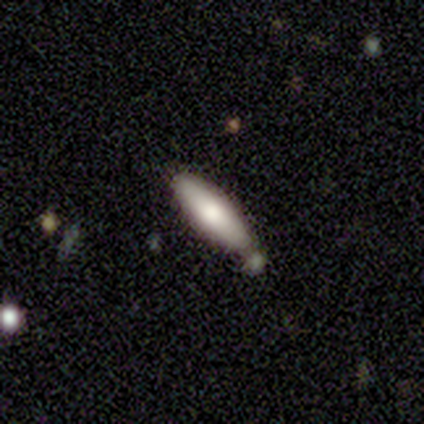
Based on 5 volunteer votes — A smooth galaxy with no disk features (80%) that is in between round and cigar-shaped (50%, tied with cigar-shaped).

Vote fractions:
- Smooth or featured? smooth: 80% / featured or disk: 20% / star or artifact: 0%
- How rounded? in between: 50% (tied) / cigar-shaped: 50% (tied) / round: 0%
- Merging? none: 80% / minor disturbance: 20% / major disturbance: 0% / merger: 0%